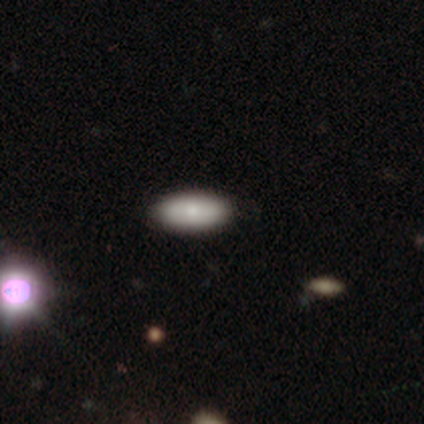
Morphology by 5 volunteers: Volunteers were most divided on "how rounded" (2-way tie): in between: 50%, cigar-shaped: 50%, round: 0%. More confident: merging — none (100%); smooth or featured — smooth (80%).